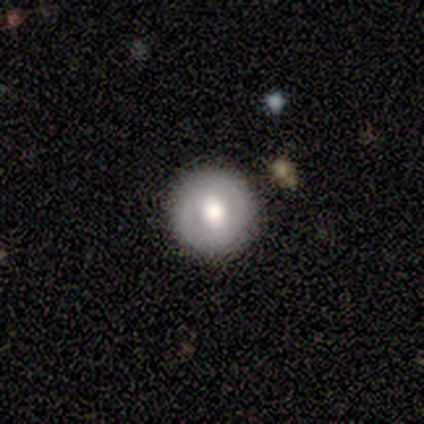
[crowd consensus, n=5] smooth_or_featured: smooth (p=0.80) [alt: featured or disk p=0.20]
how_rounded: round (p=1.00)
merging: none (p=0.80) [alt: minor disturbance p=0.20]